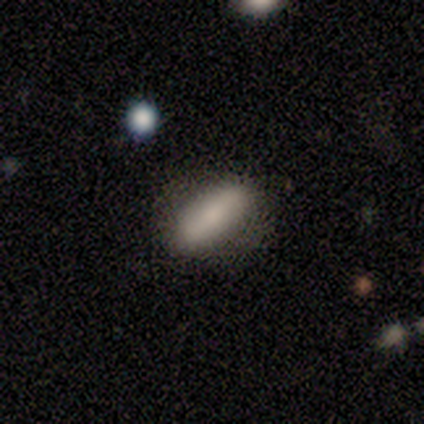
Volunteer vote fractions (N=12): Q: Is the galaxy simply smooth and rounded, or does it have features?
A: smooth — 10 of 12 (83%).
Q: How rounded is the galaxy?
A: in between — 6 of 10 (60%).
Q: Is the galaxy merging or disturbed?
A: none — 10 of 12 (83%).